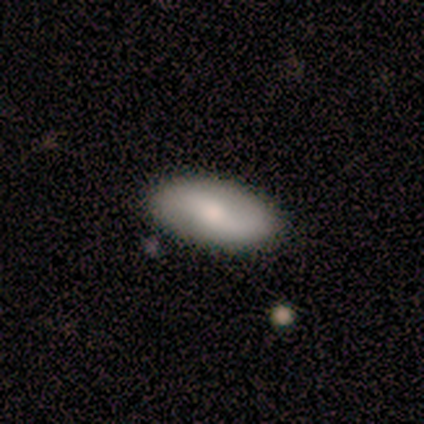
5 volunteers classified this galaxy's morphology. Q: Smooth or featured?
A: featured or disk (60%); runner-up: smooth (40%)
Q: Edge-on disk?
A: no (100%)
Q: Bar?
A: no (67%); runner-up: strong (33%)
Q: Spiral arms?
A: yes (100%)
Q: Spiral winding?
A: loose (67%); runner-up: medium (33%)
Q: Spiral arm count?
A: 2 (100%)
Q: Bulge size?
A: dominant (33%); tied with: moderate (33%); small (33%)
Q: Merging?
A: none (100%)